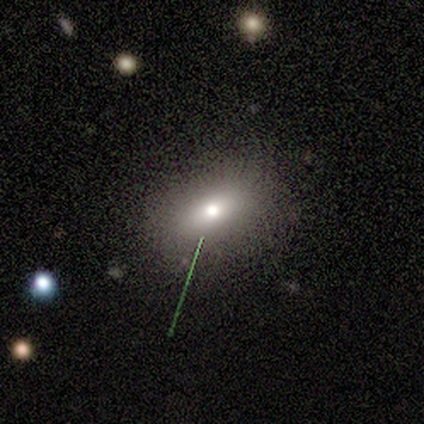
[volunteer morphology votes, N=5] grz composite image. It shows a smooth galaxy with no disk features (80%) that is in between round and cigar-shaped (50%). Merging: none (75%).